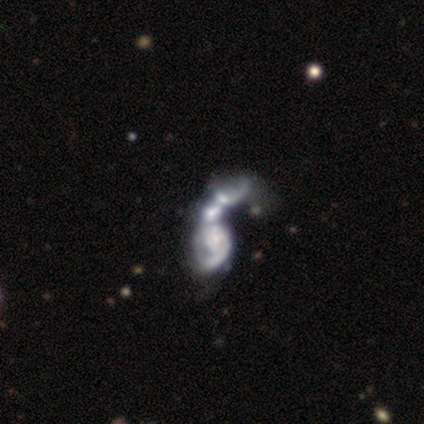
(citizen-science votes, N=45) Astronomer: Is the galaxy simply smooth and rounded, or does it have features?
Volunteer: featured or disk — 76%.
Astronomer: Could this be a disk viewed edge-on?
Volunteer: no — 97%.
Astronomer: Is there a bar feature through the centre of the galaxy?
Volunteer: no — 73%.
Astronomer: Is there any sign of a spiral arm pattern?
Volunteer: yes — 64%.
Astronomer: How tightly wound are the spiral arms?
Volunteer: loose — 62%.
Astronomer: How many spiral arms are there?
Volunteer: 1 — 43%, tied with can't tell at 43%.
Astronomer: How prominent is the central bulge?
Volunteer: small — 42% (runner-up: none, 33%).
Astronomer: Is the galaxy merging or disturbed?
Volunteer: merger — 64%.